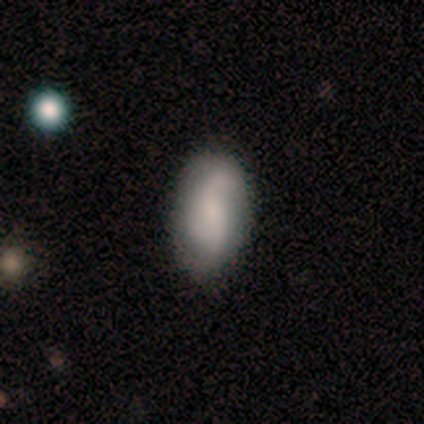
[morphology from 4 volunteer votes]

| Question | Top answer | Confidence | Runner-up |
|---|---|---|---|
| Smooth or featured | smooth | 50% | tied: featured or disk (50%) |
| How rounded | in between | 100% | — |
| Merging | none | 50% | minor disturbance (25%) |